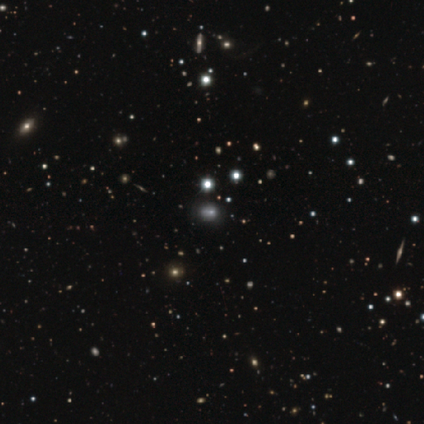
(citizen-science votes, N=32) A star or artifact, not a galaxy (47%).